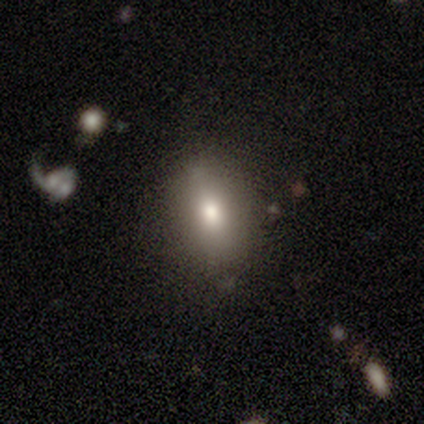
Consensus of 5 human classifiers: Smooth or featured? 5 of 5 (100%) said smooth. How rounded? 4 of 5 (80%) said in between. Merging? 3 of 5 (60%) said minor disturbance.